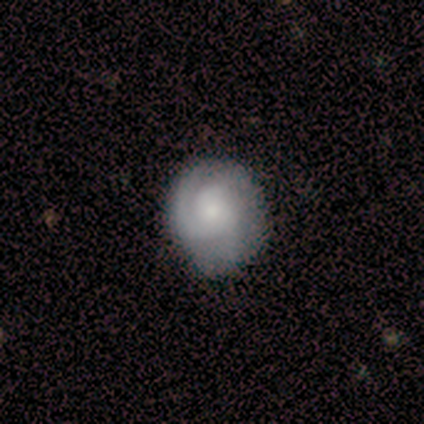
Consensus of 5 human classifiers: Volunteers were most divided on "spiral winding" (2-way tie): tight: 50%, medium: 50%, loose: 0%. More confident: edge-on disk — no (100%); bar — no (100%); spiral arms — yes (100%); bulge size — small (100%); smooth or featured — featured or disk (80%); merging — none (80%); spiral arm count — 1 (75%).